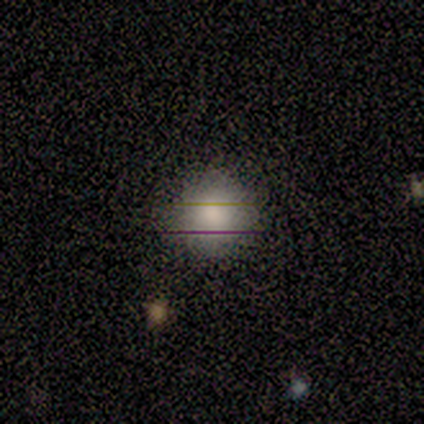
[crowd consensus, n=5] A smooth galaxy with no disk features (80%) that is round (100%).

Vote fractions:
- Smooth or featured? smooth: 80% / star or artifact: 20% / featured or disk: 0%
- How rounded? round: 100% / in between: 0% / cigar-shaped: 0%
- Merging? none: 100% / minor disturbance: 0% / major disturbance: 0% / merger: 0%